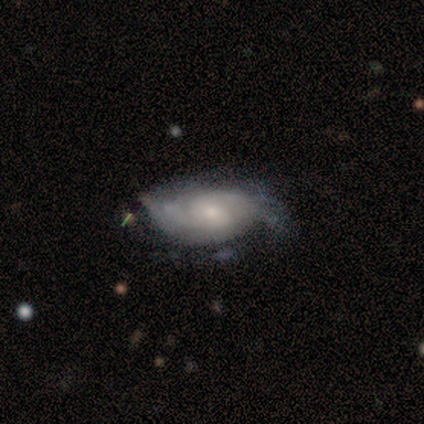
A featured or disk galaxy (71%) with no bar (72%), 2 (50%) medium (41%) spiral arms (88%) and a small central bulge (72%).

Vote fractions:
- Smooth or featured? featured or disk: 71% / smooth: 24% / star or artifact: 5%
- Edge-on disk? no: 93% / yes: 7%
- Bar? no: 72% / weak: 28% / strong: 0%
- Spiral arms? yes: 88% / no: 12%
- Spiral winding? medium: 41% / tight: 36% / loose: 23%
- Spiral arm count? 2: 50% / can't tell: 32% / 1: 14% / 3: 5% / 4: 0% / more than 4: 0%
- Bulge size? small: 72% / moderate: 16% / large: 8% / none: 4% / dominant: 0%
- Merging? none: 56% / major disturbance: 22% / minor disturbance: 19% / merger: 3%